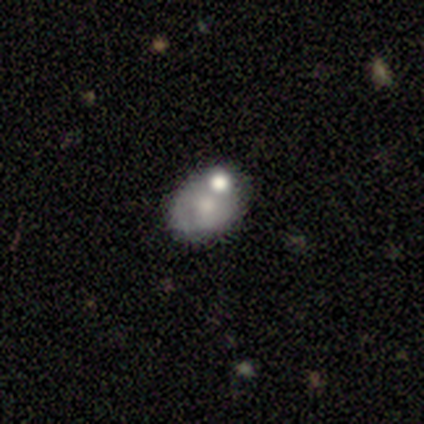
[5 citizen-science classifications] Smooth or featured? smooth (60%)
How rounded? in between (100%)
Merging? none (80%)